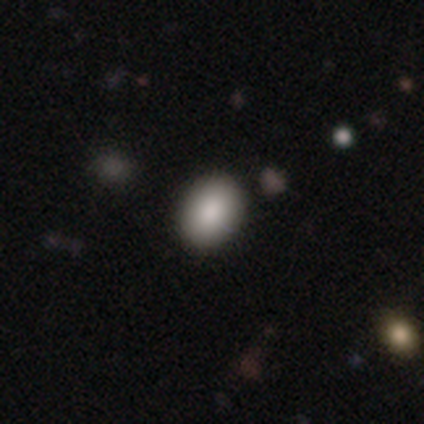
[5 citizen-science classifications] smooth_or_featured: smooth (p=0.80) [alt: star or artifact p=0.20]
how_rounded: in between (p=0.75) [alt: round p=0.25]
merging: none (p=1.00)